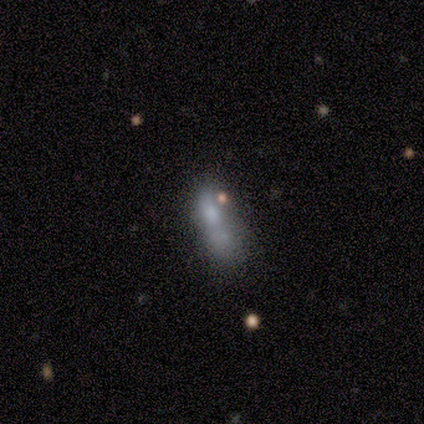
Volunteers were most divided on "merging": merger: 50%, minor disturbance: 25%, major disturbance: 25%, none: 0%. More confident: how rounded — in between (100%); smooth or featured — smooth (80%).